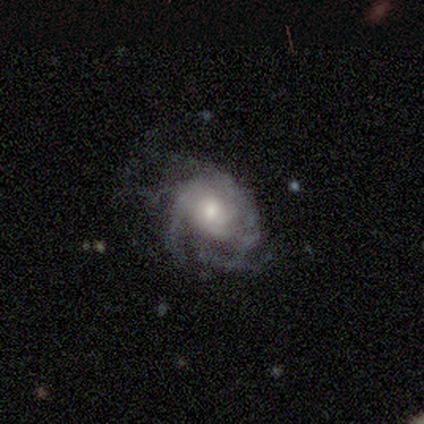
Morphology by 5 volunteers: Smooth or featured? featured or disk (80%)
Edge-on disk? no (100%)
Bar? no (75%)
Spiral arms? yes (75%)
Spiral winding? medium (67%)
Spiral arm count? 2 (33%, tied with 3 and 4)
Bulge size? moderate (50%, tied with small)
Merging? none (60%)